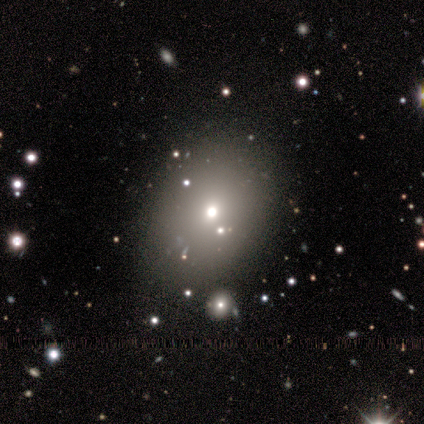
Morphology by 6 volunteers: Smooth or featured? smooth (67%)
How rounded? round (50%, tied with in between)
Merging? none (100%)